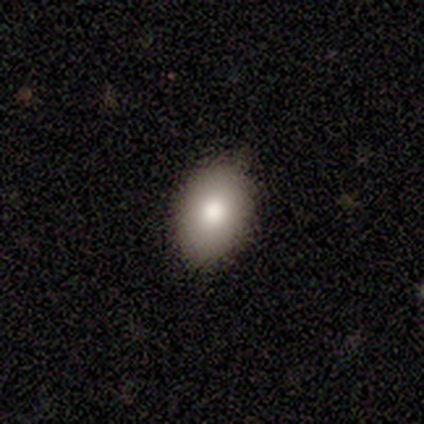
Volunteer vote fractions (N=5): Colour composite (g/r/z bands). It shows a smooth galaxy with no disk features (80%) that is round (50%, tied with in between). Merging: none (100%).